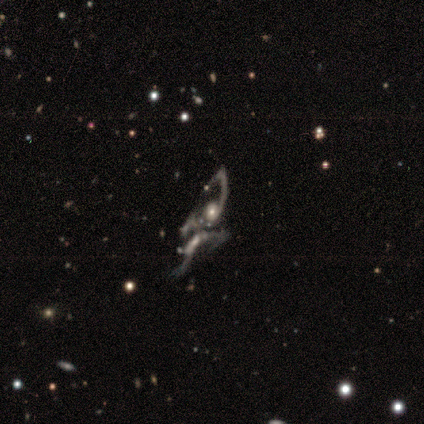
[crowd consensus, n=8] This is likely a featured or disk galaxy (62%). It is clearly not viewed edge-on (100%). Bar: clearly no (80%). Spiral arm pattern: likely yes (60%). Spiral arm count: marginally 1 (33%, tied with 2 and can't tell). Spiral winding: likely loose (67%). Central bulge: marginally moderate (40%, tied with none). Merging: marginally none (40%, tied with major disturbance).